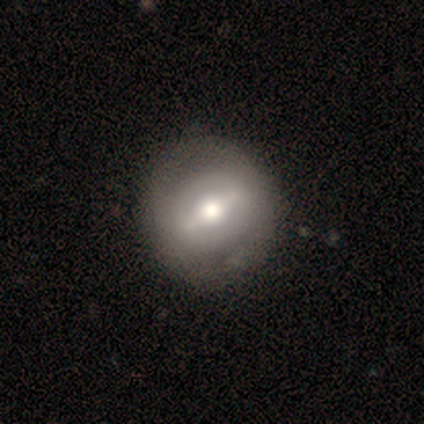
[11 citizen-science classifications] Overall: featured or disk (73%). Edge-on disk: no (88%). Bar: strong (57%; weak 43%). Spiral arms: no (86%). Bulge size: moderate (71%). Merging: none (70%; minor disturbance 30%).